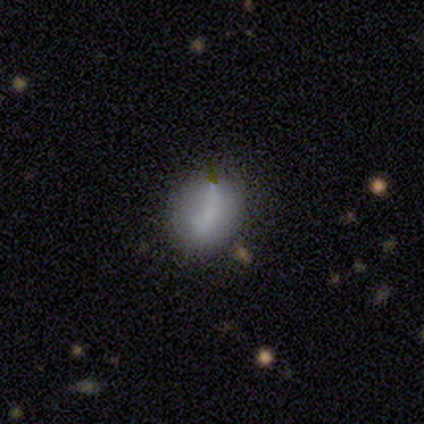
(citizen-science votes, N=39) This is likely a smooth galaxy (69%). How rounded: possibly in between (48%). Merging: marginally none (44%).